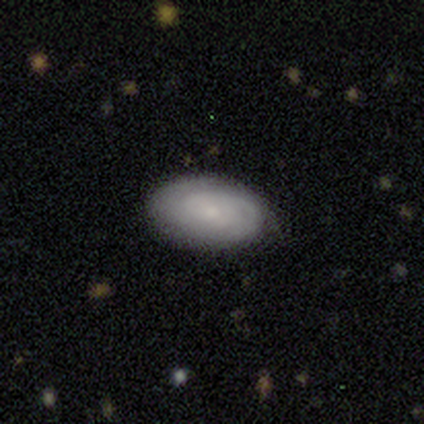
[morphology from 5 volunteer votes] smooth 60%, featured or disk 20%, star or artifact 20%. Down the decision tree: how rounded — in between (67%); merging — none (100%).